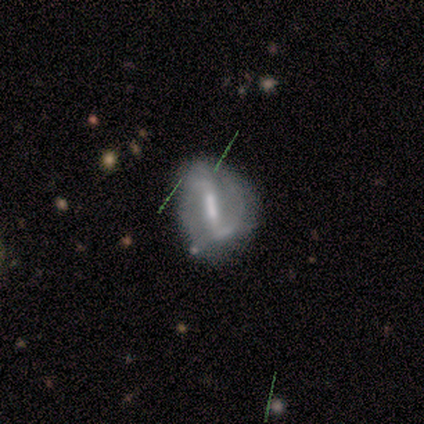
Morphology: type=featured or disk (90%); edge-on=no (100%); bar=strong (89%); spiral arms=yes (78%); winding=medium (43%, tied with loose); arm count=2 (86%); bulge=moderate (78%); merging=none (67%).